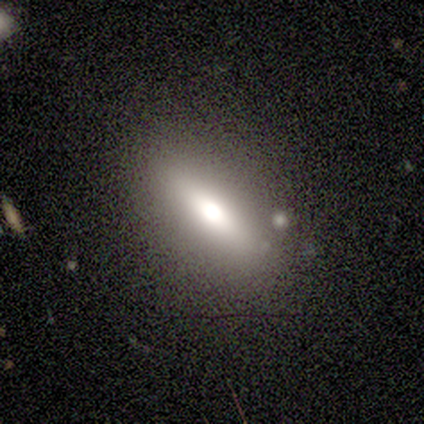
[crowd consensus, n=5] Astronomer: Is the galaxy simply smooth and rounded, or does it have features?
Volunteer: smooth — 60%.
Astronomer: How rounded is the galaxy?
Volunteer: in between — 100%.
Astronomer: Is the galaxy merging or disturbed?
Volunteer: none — 75%.